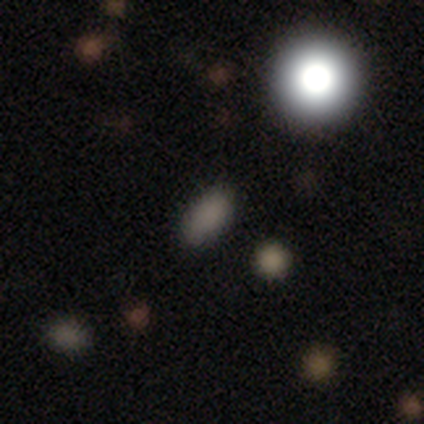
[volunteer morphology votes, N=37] Q: Smooth or featured?
A: smooth (76%); runner-up: star or artifact (22%)
Q: How rounded?
A: in between (68%); runner-up: round (32%)
Q: Merging?
A: none (76%); runner-up: minor disturbance (21%)